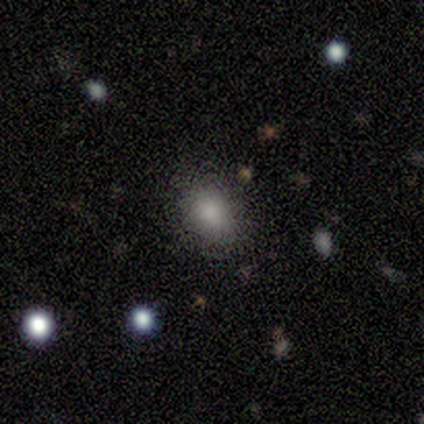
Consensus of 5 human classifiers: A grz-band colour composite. It shows a smooth galaxy with no disk features (80%) that is in between round and cigar-shaped (75%). Merging: none (100%).